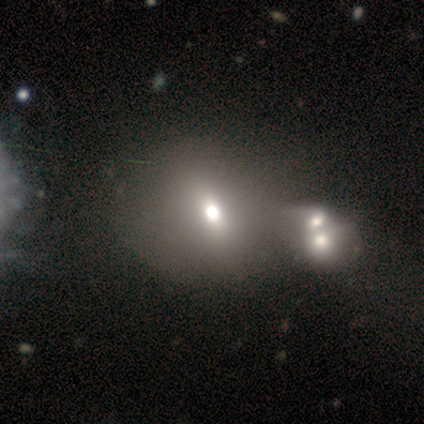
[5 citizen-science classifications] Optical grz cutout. It shows a smooth galaxy with no disk features (80%) that is round (75%). Merging: merger (75%).